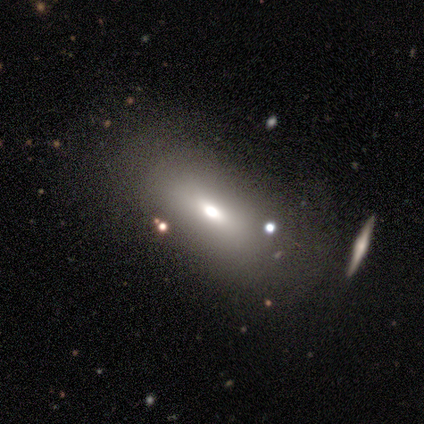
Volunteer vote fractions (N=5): Smooth or featured? 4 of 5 (80%) said smooth. How rounded? 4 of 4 (100%) said in between. Merging? 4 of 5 (80%) said none.